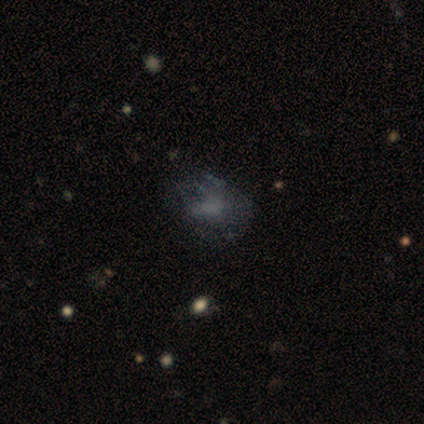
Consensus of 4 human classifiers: A featured or disk galaxy (75%) with no bar (100%), no spiral arms (100%) and no central bulge (67%). Merging: none (50%).